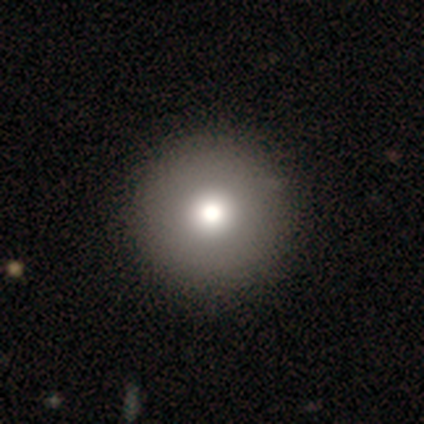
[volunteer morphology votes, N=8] smooth_or_featured: smooth (p=0.88) [alt: featured or disk p=0.12]
how_rounded: round (p=1.00)
merging: none (p=1.00)